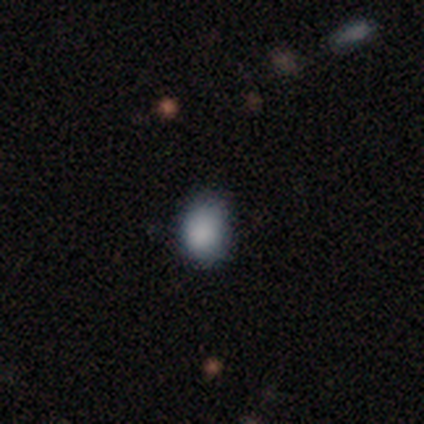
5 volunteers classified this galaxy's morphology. A smooth galaxy with no disk features (60%) that is in between round and cigar-shaped (67%).

Vote fractions:
- Smooth or featured? smooth: 60% / featured or disk: 40% / star or artifact: 0%
- How rounded? in between: 67% / round: 33% / cigar-shaped: 0%
- Merging? none: 60% / minor disturbance: 40% / major disturbance: 0% / merger: 0%